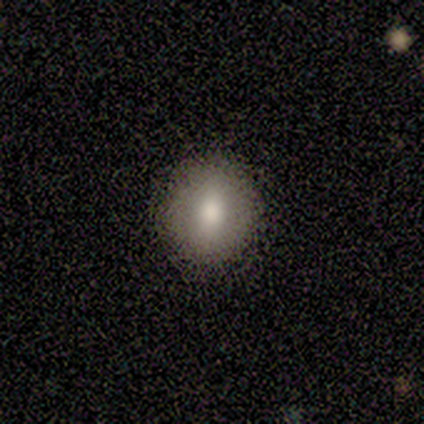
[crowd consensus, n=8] Q: Smooth or featured?
A: smooth (62%); runner-up: featured or disk (25%)
Q: How rounded?
A: round (80%); runner-up: in between (20%)
Q: Merging?
A: none (86%); runner-up: minor disturbance (14%)